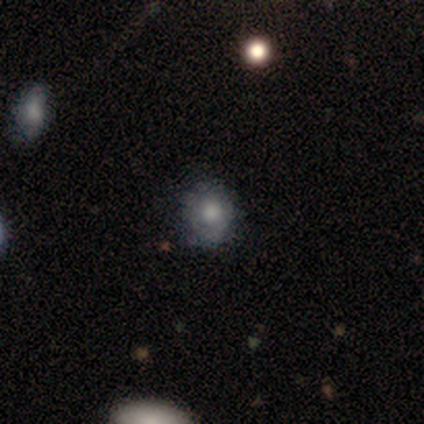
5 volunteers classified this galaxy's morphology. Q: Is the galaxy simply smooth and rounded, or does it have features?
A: smooth — 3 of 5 (60%).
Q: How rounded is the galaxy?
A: round — 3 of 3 (100%).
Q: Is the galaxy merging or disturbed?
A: none — 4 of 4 (100%).